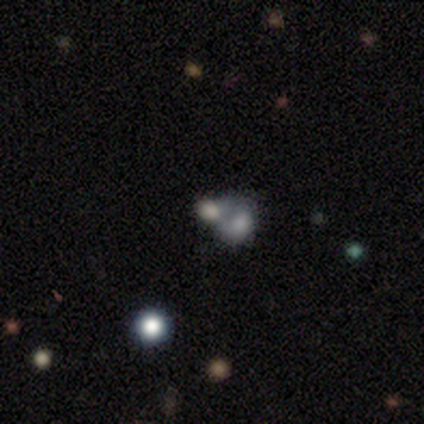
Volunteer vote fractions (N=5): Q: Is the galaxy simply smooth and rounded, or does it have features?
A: smooth — 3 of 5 (60%).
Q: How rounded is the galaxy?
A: in between — 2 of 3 (67%).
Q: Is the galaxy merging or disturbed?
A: merger — 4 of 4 (100%).